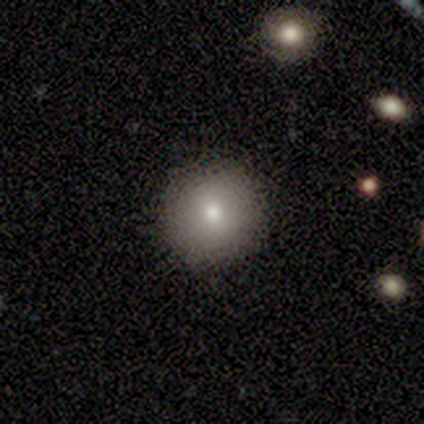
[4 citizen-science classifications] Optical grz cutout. It shows a smooth galaxy with no disk features (100%) that is round (75%). Merging: none (100%).